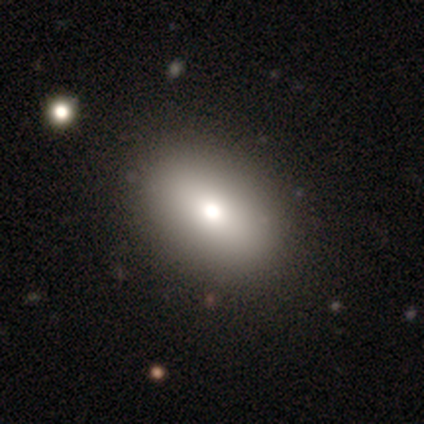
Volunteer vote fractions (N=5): Q: Smooth or featured?
A: smooth (100%)
Q: How rounded?
A: in between (80%); runner-up: round (20%)
Q: Merging?
A: none (60%); runner-up: minor disturbance (20%)